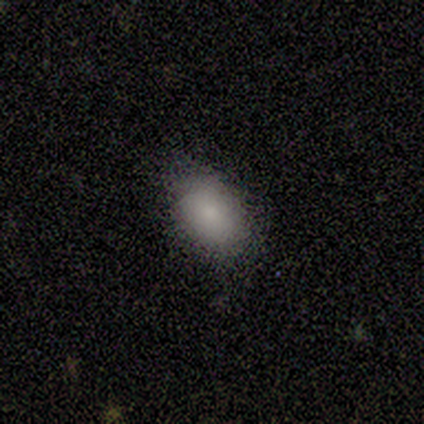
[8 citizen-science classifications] A smooth galaxy with no disk features (75%) that is in between round and cigar-shaped (83%). Merging: none (86%).